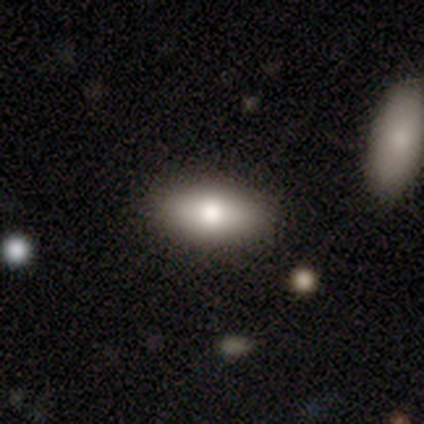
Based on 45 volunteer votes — Smooth or featured? smooth (80%)
How rounded? in between (92%)
Merging? none (85%)